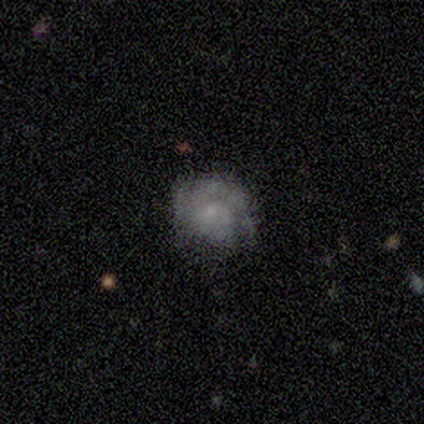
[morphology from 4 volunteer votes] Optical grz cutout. It shows a smooth galaxy with no disk features (50%, tied with featured or disk) that is in between round and cigar-shaped (100%). Merging: none (50%, tied with minor disturbance).